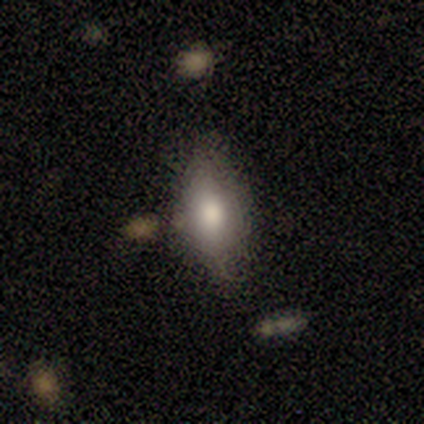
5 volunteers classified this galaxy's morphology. Smooth or featured? smooth (60%)
How rounded? in between (67%)
Merging? none (50%)